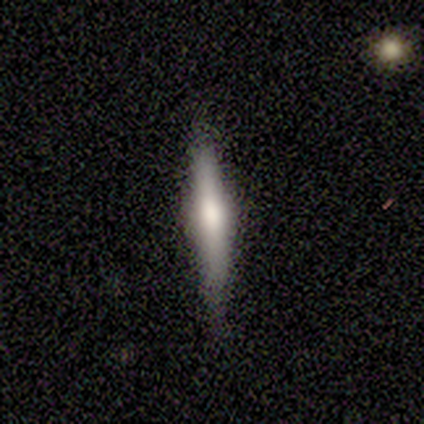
Overall: featured or disk (67%; smooth 28%). Edge-on disk: yes (98%). Edge-on bulge: rounded (74%). Merging: none (86%).